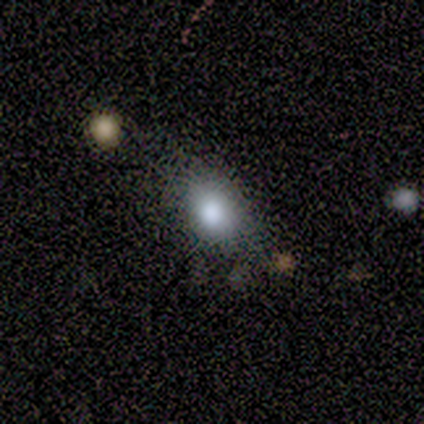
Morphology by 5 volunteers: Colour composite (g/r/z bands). It shows a smooth galaxy with no disk features (60%) that is in between round and cigar-shaped (100%). Merging: none (67%).